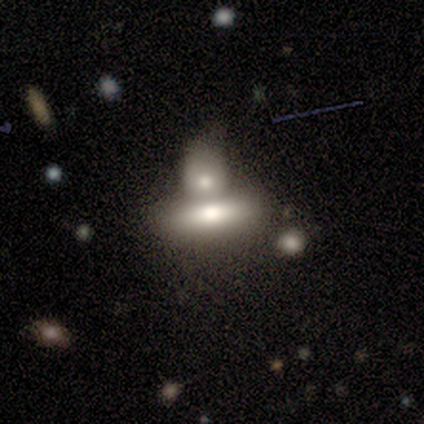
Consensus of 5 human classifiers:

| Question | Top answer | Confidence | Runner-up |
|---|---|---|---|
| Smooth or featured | smooth | 80% | featured or disk (20%) |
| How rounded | in between | 50% | tied: cigar-shaped (50%) |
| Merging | none | 40% | tied: merger (40%) |